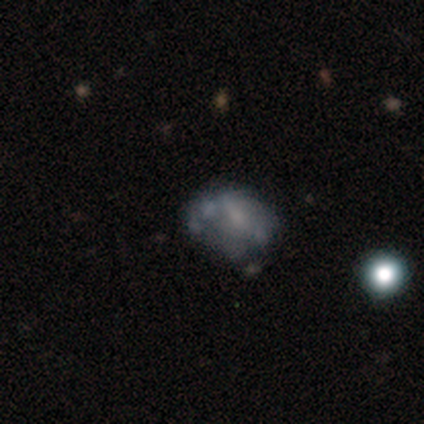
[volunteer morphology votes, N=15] featured or disk 67%, smooth 20%, star or artifact 13%. Down the decision tree: edge-on disk — no (90%); bar — no (78%); spiral arms — no (89%); bulge size — none (67%); merging — merger (38%).